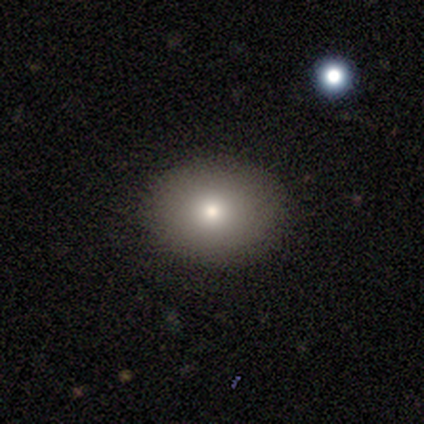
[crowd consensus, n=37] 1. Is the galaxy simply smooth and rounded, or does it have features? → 73% smooth, 16% featured or disk, 11% star or artifact.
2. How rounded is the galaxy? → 59% round, 41% in between, 0% cigar-shaped.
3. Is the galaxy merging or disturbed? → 97% none, 3% minor disturbance, 0% major disturbance, 0% merger.